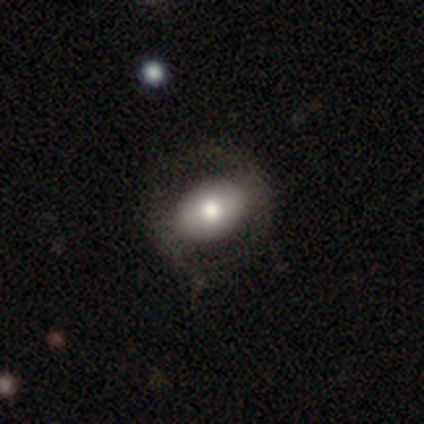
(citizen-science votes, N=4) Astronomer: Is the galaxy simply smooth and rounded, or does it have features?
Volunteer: smooth — 100%.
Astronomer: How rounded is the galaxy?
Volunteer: in between — 100%.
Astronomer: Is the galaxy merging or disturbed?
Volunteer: none — 75%.